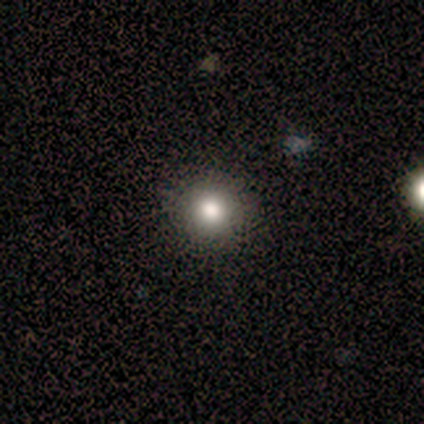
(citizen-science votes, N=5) Q: Smooth or featured?
A: smooth (80%); runner-up: featured or disk (20%)
Q: How rounded?
A: round (100%)
Q: Merging?
A: none (80%); runner-up: minor disturbance (20%)